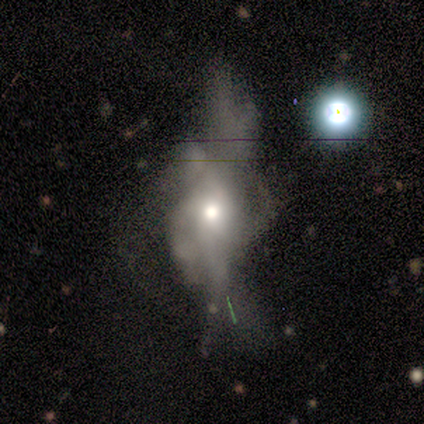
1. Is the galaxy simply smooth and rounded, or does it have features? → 64% featured or disk, 27% star or artifact, 9% smooth.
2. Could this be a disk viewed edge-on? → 86% no, 14% yes.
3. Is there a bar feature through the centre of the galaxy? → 100% no, 0% strong, 0% weak.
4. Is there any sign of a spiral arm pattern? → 100% no, 0% yes.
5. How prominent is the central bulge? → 83% moderate, 17% large, 0% dominant, 0% small, 0% none.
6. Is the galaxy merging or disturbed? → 75% major disturbance, 12% minor disturbance, 12% merger, 0% none.